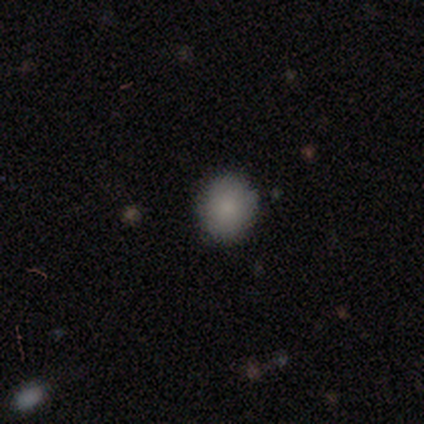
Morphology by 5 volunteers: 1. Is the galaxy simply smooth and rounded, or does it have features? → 80% smooth, 20% featured or disk, 0% star or artifact.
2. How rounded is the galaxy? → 100% round, 0% in between, 0% cigar-shaped.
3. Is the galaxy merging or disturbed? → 80% none, 20% minor disturbance, 0% major disturbance, 0% merger.